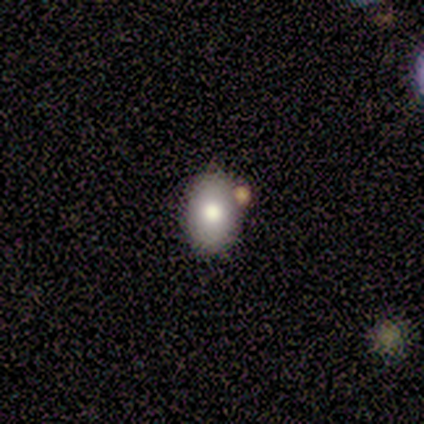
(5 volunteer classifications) smooth-or-featured: smooth: 100% | featured or disk: 0% | star or artifact: 0%
  how-rounded: in between: 60% | round: 40% | cigar-shaped: 0%
  merging: none: 80% | minor disturbance: 20% | major disturbance: 0% | merger: 0%